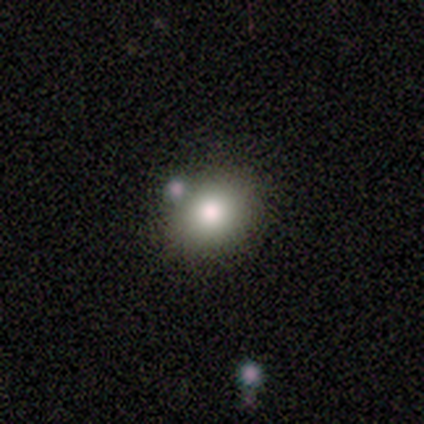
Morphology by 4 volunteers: type=star or artifact (50%).